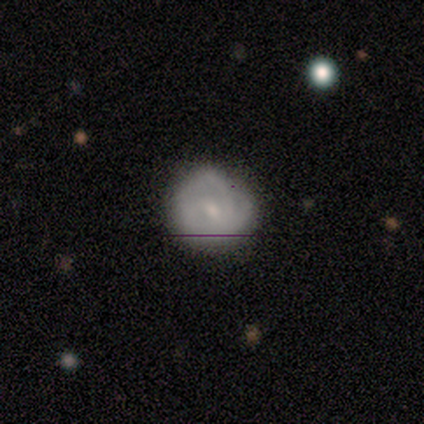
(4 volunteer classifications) Morphology: type=smooth (50%, tied with featured or disk); roundness=round (100%); merging=none (50%, tied with minor disturbance).